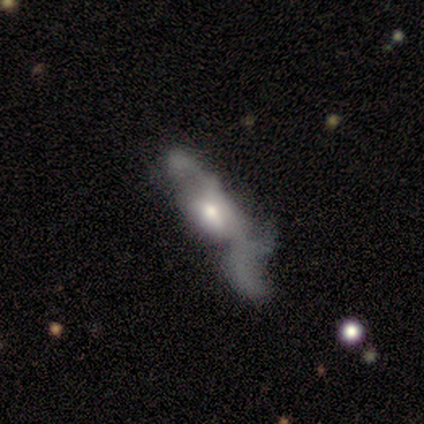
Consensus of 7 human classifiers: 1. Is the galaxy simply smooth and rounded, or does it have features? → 86% featured or disk, 14% smooth, 0% star or artifact.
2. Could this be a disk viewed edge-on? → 67% no, 33% yes.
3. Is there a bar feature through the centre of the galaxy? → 100% no, 0% strong, 0% weak.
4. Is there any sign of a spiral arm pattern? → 75% no, 25% yes.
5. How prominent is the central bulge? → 75% moderate, 25% large, 0% dominant, 0% small, 0% none.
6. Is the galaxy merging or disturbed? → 57% major disturbance, 29% minor disturbance, 14% merger, 0% none.